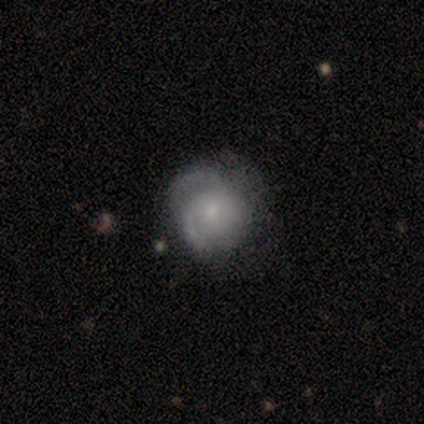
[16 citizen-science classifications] smooth_or_featured: featured or disk (p=0.56) [alt: smooth p=0.38]
disk_edge_on: no (p=1.00)
bar: no (p=0.56) [alt: weak p=0.44]
has_spiral_arms: yes (p=1.00)
spiral_winding: tight (p=0.44) [alt: medium p=0.33]
spiral_arm_count: 2 (p=0.33) [tied with: 3 p=0.33, can't tell p=0.33]
bulge_size: small (p=0.67) [alt: large p=0.11]
merging: none (p=0.73) [alt: minor disturbance p=0.13]